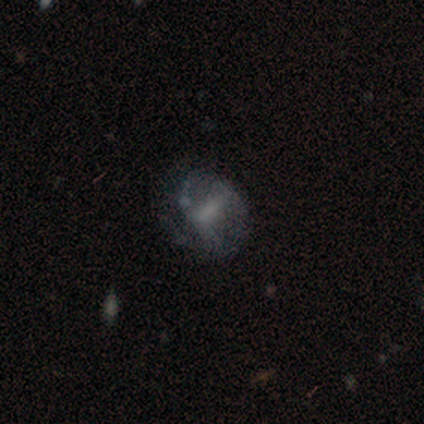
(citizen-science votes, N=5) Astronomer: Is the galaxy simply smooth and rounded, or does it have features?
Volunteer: featured or disk — 80%.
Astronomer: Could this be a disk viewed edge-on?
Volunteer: no — 100%.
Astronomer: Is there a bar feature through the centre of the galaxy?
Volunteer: weak — 50%.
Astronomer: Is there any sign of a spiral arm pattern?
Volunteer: yes — 75%.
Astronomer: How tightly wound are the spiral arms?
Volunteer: loose — 100%.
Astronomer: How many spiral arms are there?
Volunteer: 2 — 100%.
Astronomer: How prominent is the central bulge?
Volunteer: large — 50%.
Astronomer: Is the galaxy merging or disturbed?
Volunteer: none — 40% (runner-up: minor disturbance, 20%).